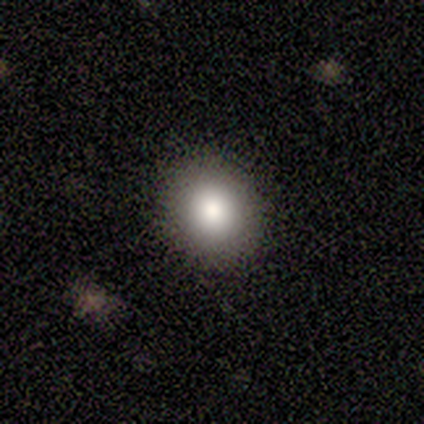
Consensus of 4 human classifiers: smooth 50%, featured or disk 25%, star or artifact 25%. Down the decision tree: how rounded — round (100%); merging — none (100%).